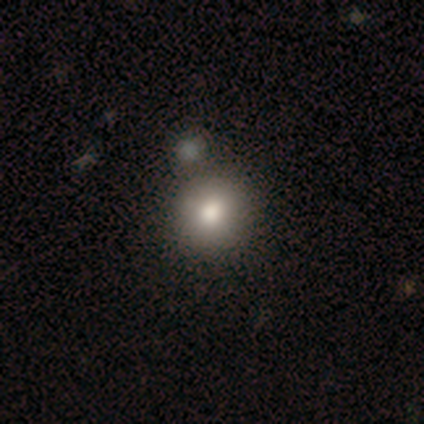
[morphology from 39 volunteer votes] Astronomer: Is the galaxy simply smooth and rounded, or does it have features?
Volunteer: smooth — 82%.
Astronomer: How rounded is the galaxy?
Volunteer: round — 91%.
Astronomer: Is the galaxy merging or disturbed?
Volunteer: none — 56%.